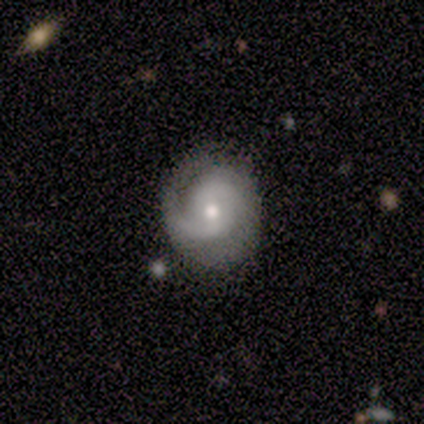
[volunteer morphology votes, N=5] type=featured or disk (80%); edge-on=no (100%); bar=no (75%); spiral arms=yes (100%); winding=tight (50%); arm count=2 (75%); bulge=moderate (75%); merging=none (100%).